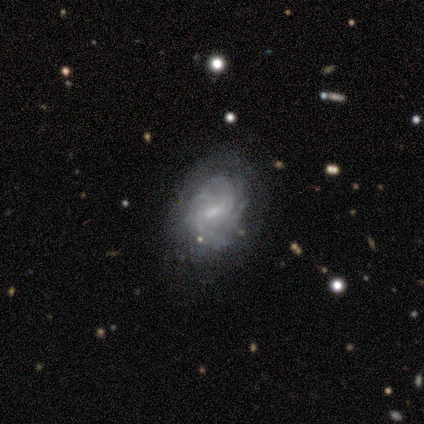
Q: Smooth or featured?
A: featured or disk (60%); runner-up: smooth (40%)
Q: Edge-on disk?
A: no (100%)
Q: Bar?
A: strong (33%); tied with: weak (33%); no (33%)
Q: Spiral arms?
A: yes (100%)
Q: Spiral winding?
A: tight (100%)
Q: Spiral arm count?
A: can't tell (67%); runner-up: 3 (33%)
Q: Bulge size?
A: small (67%); runner-up: none (33%)
Q: Merging?
A: none (80%); runner-up: minor disturbance (20%)